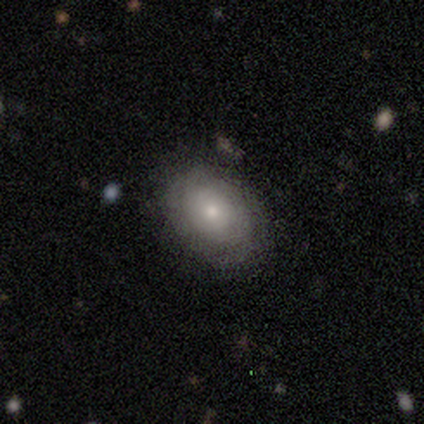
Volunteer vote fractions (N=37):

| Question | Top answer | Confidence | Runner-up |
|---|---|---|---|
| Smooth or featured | smooth | 65% | featured or disk (35%) |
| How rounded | in between | 62% | round (38%) |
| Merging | none | 76% | minor disturbance (14%) |